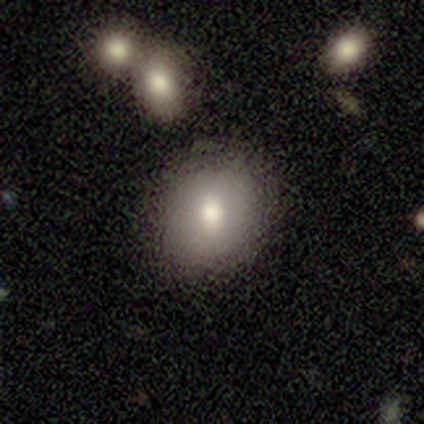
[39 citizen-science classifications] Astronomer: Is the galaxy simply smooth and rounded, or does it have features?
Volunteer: smooth — 69%.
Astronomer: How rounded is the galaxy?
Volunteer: round — 74%.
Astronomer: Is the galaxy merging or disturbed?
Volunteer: none — 85%.